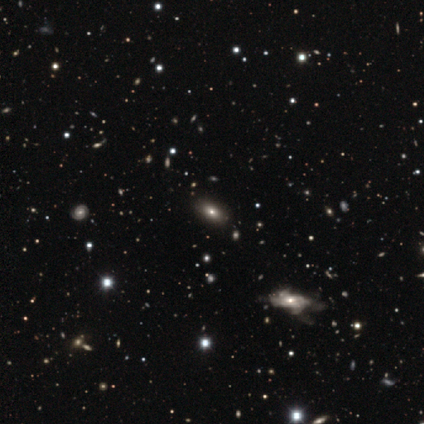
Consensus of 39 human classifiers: Smooth or featured? 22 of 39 (56%) said smooth. How rounded? 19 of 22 (86%) said in between. Merging? 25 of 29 (86%) said none.